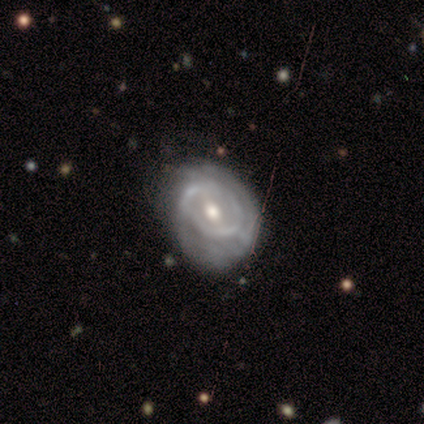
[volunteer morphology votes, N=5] Q: Smooth or featured?
A: featured or disk (80%); runner-up: smooth (20%)
Q: Edge-on disk?
A: no (100%)
Q: Bar?
A: no (50%); runner-up: strong (25%)
Q: Spiral arms?
A: yes (100%)
Q: Spiral winding?
A: tight (100%)
Q: Spiral arm count?
A: can't tell (50%); runner-up: 2 (25%)
Q: Bulge size?
A: moderate (75%); runner-up: small (25%)
Q: Merging?
A: none (80%); runner-up: major disturbance (20%)